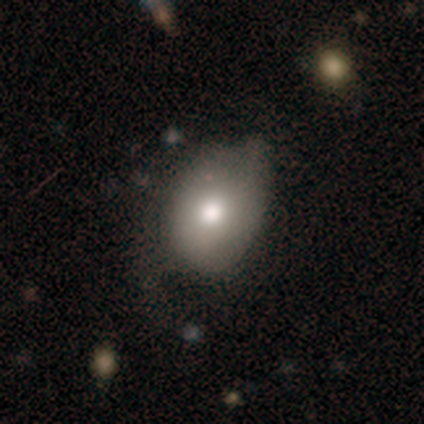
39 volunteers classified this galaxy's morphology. Smooth or featured?
  - smooth: 82% *
  - featured or disk: 18%
  - star or artifact: 0%
How rounded?
  - in between: 66% *
  - round: 34%
  - cigar-shaped: 0%
Merging?
  - none: 38% *
  - minor disturbance: 28%
  - major disturbance: 10%
  - merger: 0%